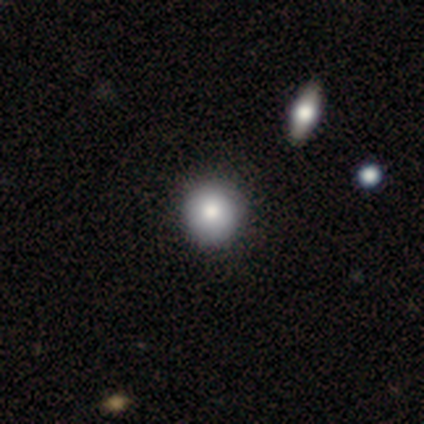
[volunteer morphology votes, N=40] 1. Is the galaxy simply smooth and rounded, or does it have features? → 90% smooth, 10% featured or disk, 0% star or artifact.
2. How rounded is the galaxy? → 100% round, 0% in between, 0% cigar-shaped.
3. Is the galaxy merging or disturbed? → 80% none, 5% minor disturbance, 2% merger, 0% major disturbance.